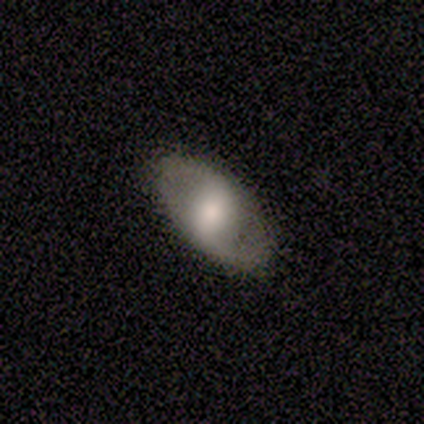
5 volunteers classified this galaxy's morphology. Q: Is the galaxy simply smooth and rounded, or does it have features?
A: featured or disk — 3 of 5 (60%).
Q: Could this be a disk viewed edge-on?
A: no — 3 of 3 (100%).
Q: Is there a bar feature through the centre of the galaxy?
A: strong — 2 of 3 (67%).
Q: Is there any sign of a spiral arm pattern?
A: yes — 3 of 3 (100%).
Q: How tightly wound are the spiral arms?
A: loose — 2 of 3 (67%).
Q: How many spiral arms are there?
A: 2 — 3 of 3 (100%).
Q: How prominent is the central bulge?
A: moderate — 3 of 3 (100%).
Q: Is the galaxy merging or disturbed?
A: none — 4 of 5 (80%).